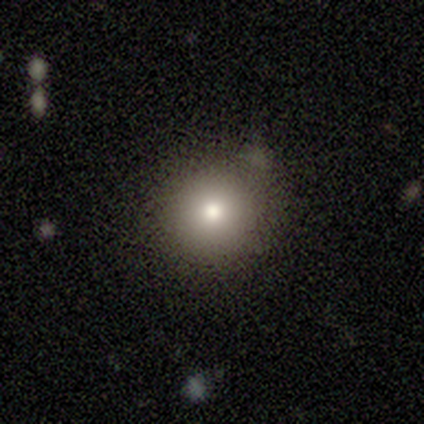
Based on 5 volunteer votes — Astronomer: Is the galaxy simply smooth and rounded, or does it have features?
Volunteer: smooth — 60%.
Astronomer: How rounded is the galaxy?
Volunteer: round — 100%.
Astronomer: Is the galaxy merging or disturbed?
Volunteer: none — 100%.